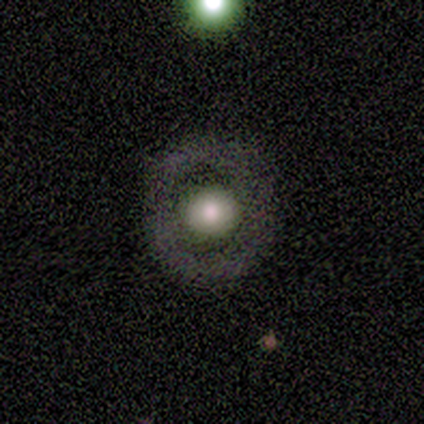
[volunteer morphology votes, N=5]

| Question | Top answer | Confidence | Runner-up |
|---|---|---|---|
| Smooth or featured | smooth | 80% | featured or disk (20%) |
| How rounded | round | 100% | — |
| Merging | none | 100% | — |